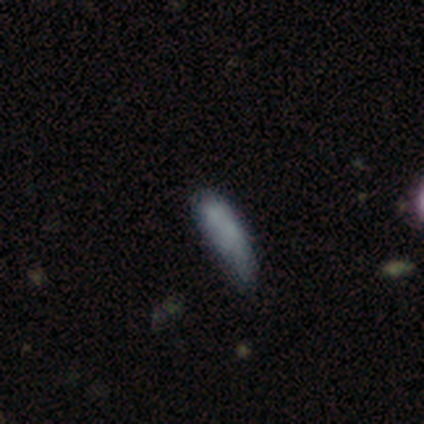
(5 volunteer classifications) Overall: smooth (60%; featured or disk 40%). How rounded: cigar-shaped (67%; in between 33%). Merging: none (40%, tied with minor disturbance).